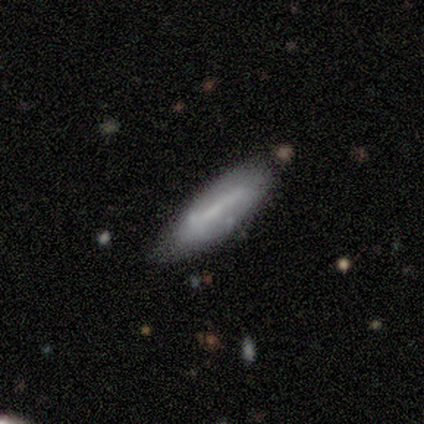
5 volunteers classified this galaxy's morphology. A featured or disk galaxy (80%) with a weak bar (67%), no spiral arms (100%) and no central bulge (100%). Merging: none (60%).